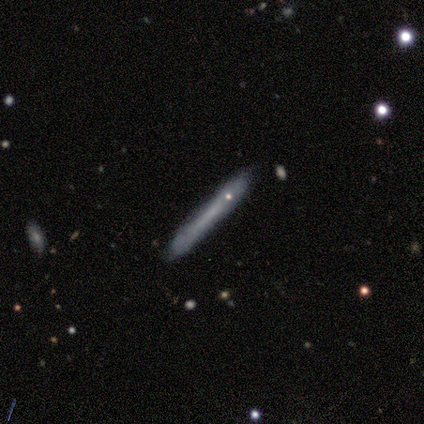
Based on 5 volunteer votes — Smooth or featured? smooth (60%)
How rounded? cigar-shaped (100%)
Merging? none (100%)